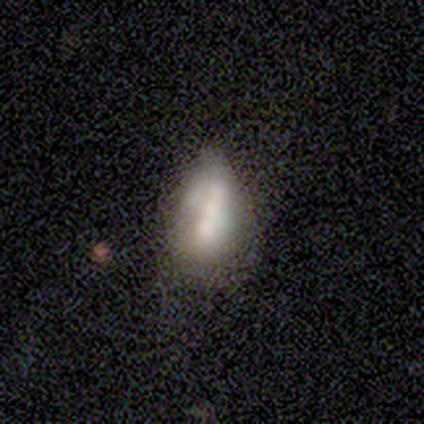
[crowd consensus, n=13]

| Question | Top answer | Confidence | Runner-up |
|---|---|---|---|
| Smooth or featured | smooth | 46% | tied: featured or disk (46%) |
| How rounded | in between | 83% | cigar-shaped (17%) |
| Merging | minor disturbance | 67% | merger (33%) |